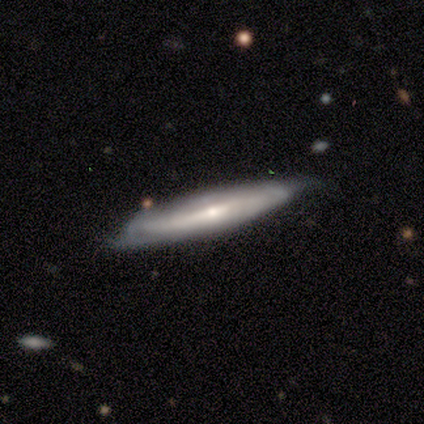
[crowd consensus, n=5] Morphology: type=smooth (80%); roundness=cigar-shaped (100%); merging=none (60%).